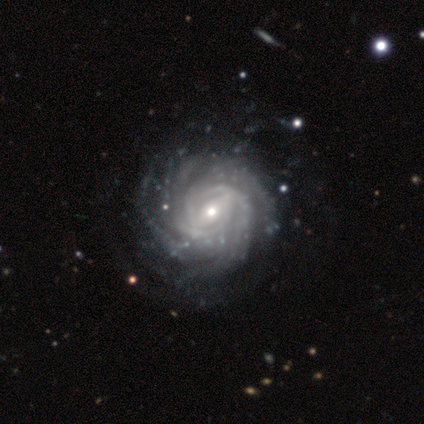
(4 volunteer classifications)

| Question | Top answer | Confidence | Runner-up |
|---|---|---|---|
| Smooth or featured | featured or disk | 100% | — |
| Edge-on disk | no | 100% | — |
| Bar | weak | 75% | no (25%) |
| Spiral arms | yes | 100% | — |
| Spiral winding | tight | 75% | medium (25%) |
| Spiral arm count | more than 4 | 75% | 4 (25%) |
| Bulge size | moderate | 50% | tied: small (50%) |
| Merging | none | 100% | — |